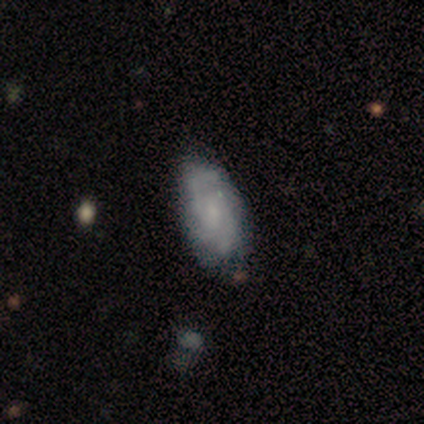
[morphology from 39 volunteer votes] Overall: featured or disk (72%). Edge-on disk: no (93%). Bar: no (65%; weak 31%). Spiral arms: yes (88%). Spiral arm count: 2 (30%, tied with can't tell). Spiral winding: tight (52%; medium 39%). Bulge size: small (46%; none 31%). Merging: none (49%; minor disturbance 15%).